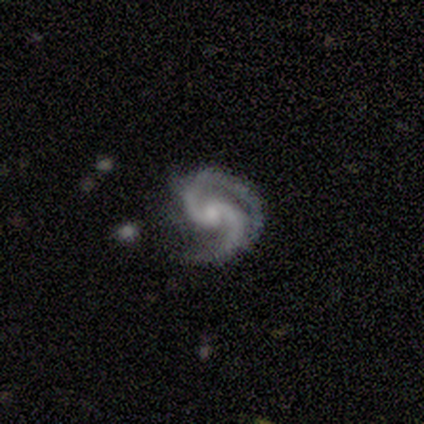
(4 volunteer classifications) This appears to be a featured or disk galaxy (100%) with a weak bar (50%, tied with no), 2 (100%) medium (75%) spiral arms (100%) and a moderate central bulge (100%). Merging: none (50%).